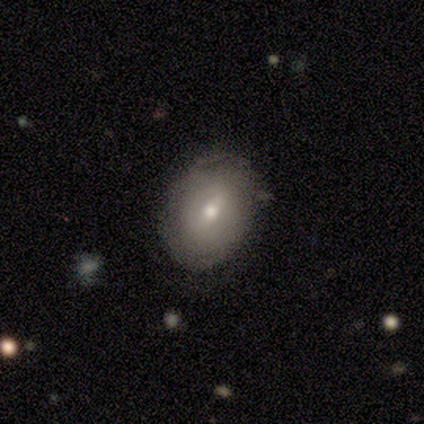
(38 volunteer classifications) Morphology: type=featured or disk (61%); edge-on=no (100%); bar=weak (78%); spiral arms=yes (57%); winding=tight (46%); arm count=can't tell (69%); bulge=moderate (65%); merging=none (76%).